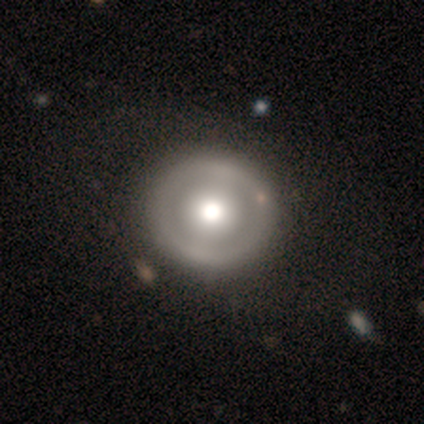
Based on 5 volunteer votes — Smooth or featured?
  - featured or disk: 80% *
  - smooth: 20%
  - star or artifact: 0%
Edge-on disk?
  - no: 100% *
  - yes: 0%
Bar?
  - strong: 50% * (tied)
  - no: 50% * (tied)
  - weak: 0%
Spiral arms?
  - no: 75% *
  - yes: 25%
Bulge size?
  - large: 50% * (tied)
  - moderate: 50% * (tied)
  - dominant: 0%
  - small: 0%
  - none: 0%
Merging?
  - none: 100% *
  - minor disturbance: 0%
  - major disturbance: 0%
  - merger: 0%